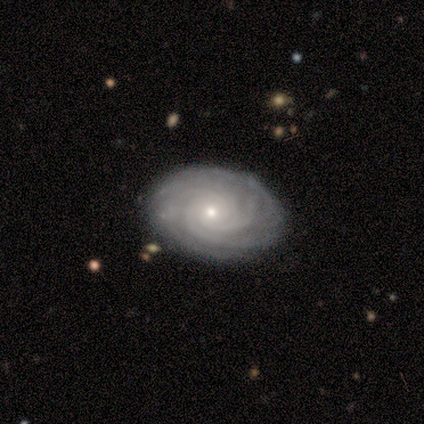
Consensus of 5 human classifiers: featured or disk 100%, smooth 0%, star or artifact 0%. Down the decision tree: edge-on disk — no (100%); bar — no (100%); spiral arms — yes (100%); spiral arm count — 3 (40%, tied with more than 4); spiral winding — tight (100%); bulge size — small (80%); merging — none (100%).